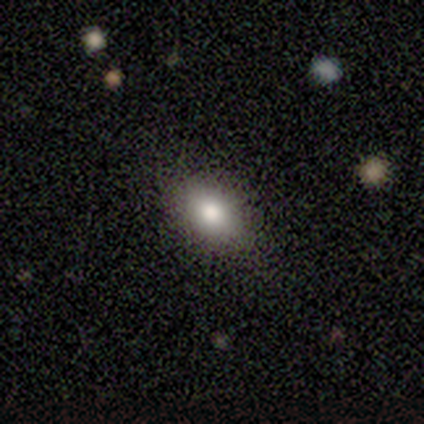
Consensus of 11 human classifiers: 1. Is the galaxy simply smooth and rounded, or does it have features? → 91% smooth, 9% star or artifact, 0% featured or disk.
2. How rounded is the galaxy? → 80% in between, 10% round, 10% cigar-shaped.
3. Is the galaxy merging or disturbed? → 90% none, 10% minor disturbance, 0% major disturbance, 0% merger.